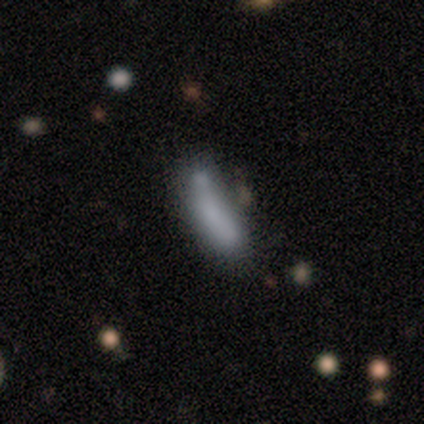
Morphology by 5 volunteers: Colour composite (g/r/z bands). It shows a smooth galaxy with no disk features (60%) that is cigar-shaped (67%). Merging: none (25%, tied with minor disturbance, major disturbance and merger).